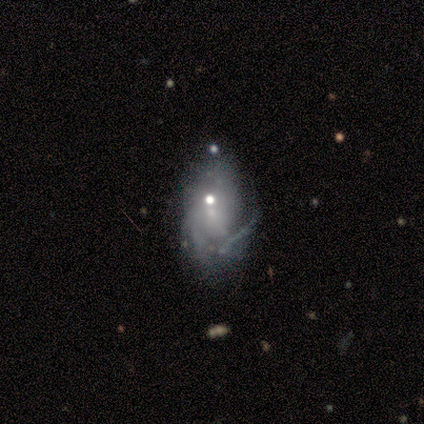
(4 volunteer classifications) smooth_or_featured: featured or disk (p=0.75) [alt: star or artifact p=0.25]
disk_edge_on: no (p=1.00)
bar: no (p=1.00)
has_spiral_arms: no (p=0.67) [alt: yes p=0.33]
bulge_size: small (p=1.00)
merging: none (p=0.67) [alt: minor disturbance p=0.33]